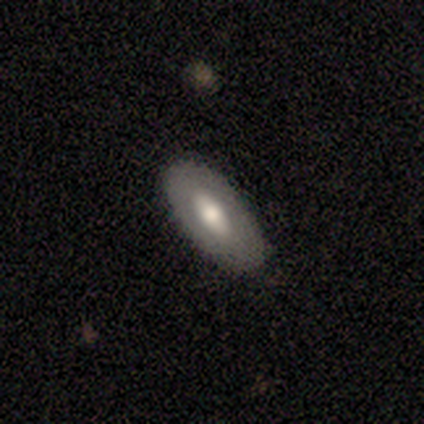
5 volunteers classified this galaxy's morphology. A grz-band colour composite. It shows a featured or disk galaxy (80%) with no bar (67%), no spiral arms (100%) and a moderate central bulge (100%). Merging: none (100%).